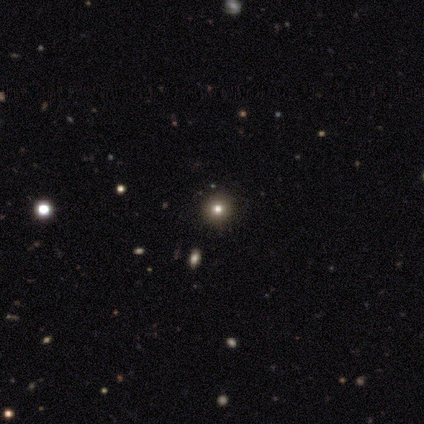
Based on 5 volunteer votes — This is clearly a smooth galaxy (80%). How rounded: likely round (75%). Merging: clearly none (100%).